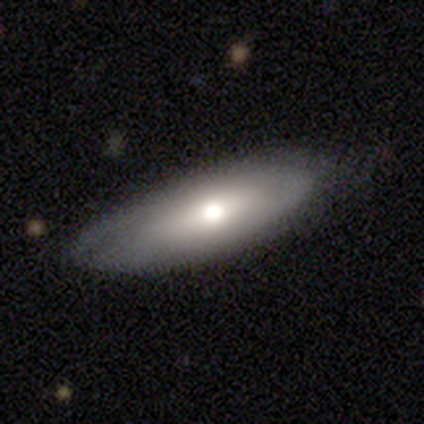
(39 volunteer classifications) Overall: smooth (67%; featured or disk 28%). How rounded: in between (69%; cigar-shaped 31%). Merging: none (78%).